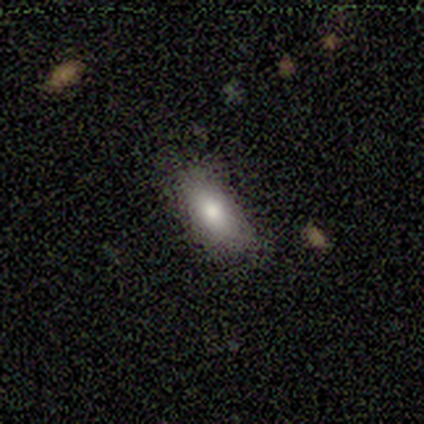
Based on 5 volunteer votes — Overall: smooth (80%). How rounded: in between (100%). Merging: minor disturbance (60%; none 40%).